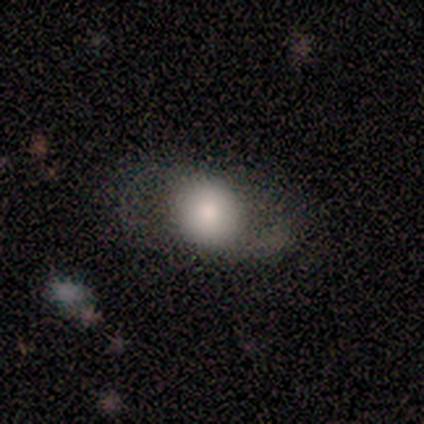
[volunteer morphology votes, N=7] smooth-or-featured: smooth: 57% | featured or disk: 43% | star or artifact: 0%
  how-rounded: round: 75% | in between: 25% | cigar-shaped: 0%
  merging: none: 57% | minor disturbance: 29% | major disturbance: 14% | merger: 0%